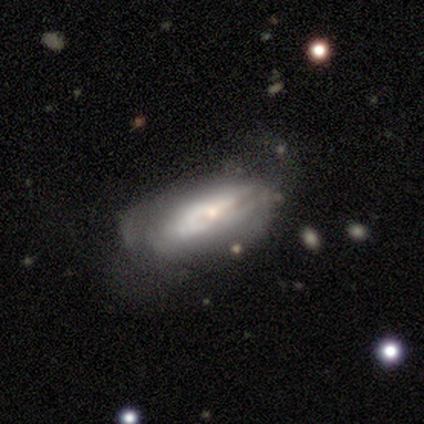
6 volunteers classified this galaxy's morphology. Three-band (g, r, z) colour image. It shows a smooth galaxy with no disk features (50%) that is in between round and cigar-shaped (67%). Merging: none (40%, tied with major disturbance).